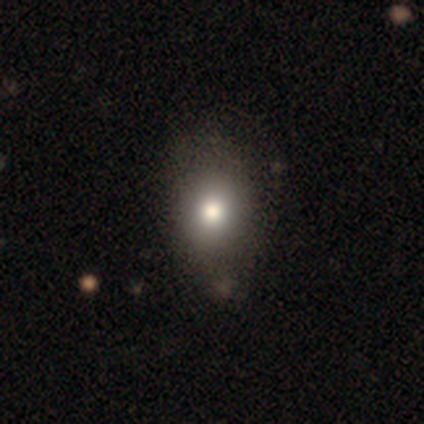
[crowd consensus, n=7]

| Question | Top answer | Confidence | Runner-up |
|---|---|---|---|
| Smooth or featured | smooth | 100% | — |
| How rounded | in between | 71% | round (29%) |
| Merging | none | 57% | minor disturbance (29%) |